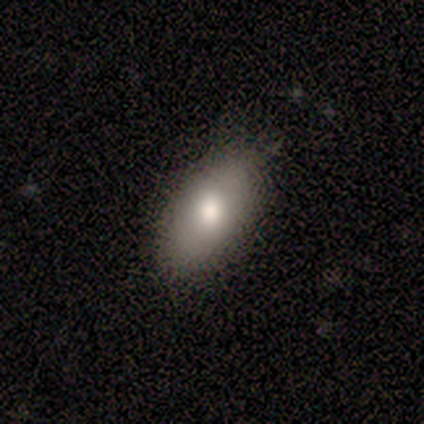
Volunteers were most divided on "smooth or featured": smooth: 80%, featured or disk: 20%, star or artifact: 0%. More confident: how rounded — in between (100%); merging — none (100%).